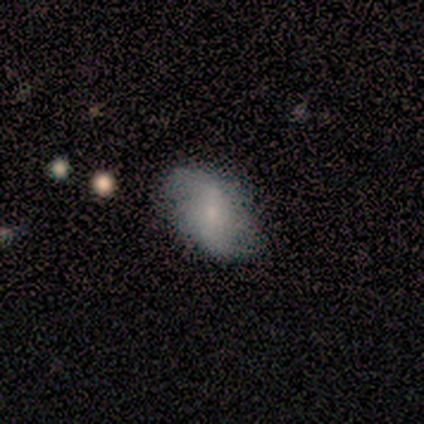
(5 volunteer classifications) smooth_or_featured: smooth (p=0.60) [alt: featured or disk p=0.40]
how_rounded: in between (p=1.00)
merging: none (p=0.60) [alt: minor disturbance p=0.40]